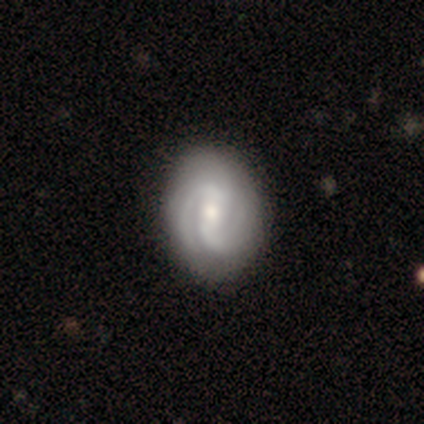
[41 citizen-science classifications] Smooth or featured?
  - featured or disk: 83% *
  - smooth: 15%
  - star or artifact: 2%
Edge-on disk?
  - no: 100% *
  - yes: 0%
Bar?
  - strong: 41% *
  - weak: 29%
  - no: 29%
Spiral arms?
  - yes: 97% *
  - no: 3%
Spiral winding?
  - tight: 61% *
  - medium: 33%
  - loose: 6%
Spiral arm count?
  - 2: 58% *
  - can't tell: 24%
  - 3: 9%
  - 4: 9%
  - 1: 0%
  - more than 4: 0%
Bulge size?
  - moderate: 65% *
  - small: 29%
  - dominant: 3%
  - large: 3%
  - none: 0%
Merging?
  - none: 52% *
  - minor disturbance: 12%
  - major disturbance: 8%
  - merger: 0%